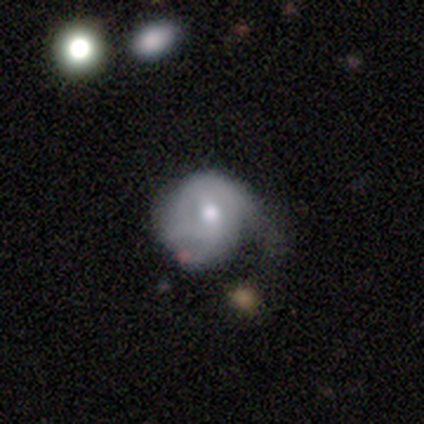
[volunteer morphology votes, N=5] Overall: featured or disk (60%; smooth 40%). Edge-on disk: no (100%). Bar: no (67%; weak 33%). Spiral arms: yes (67%; no 33%). Spiral arm count: 2 (50%, tied with can't tell). Spiral winding: tight (50%, tied with loose). Bulge size: moderate (67%; small 33%). Merging: minor disturbance (80%).